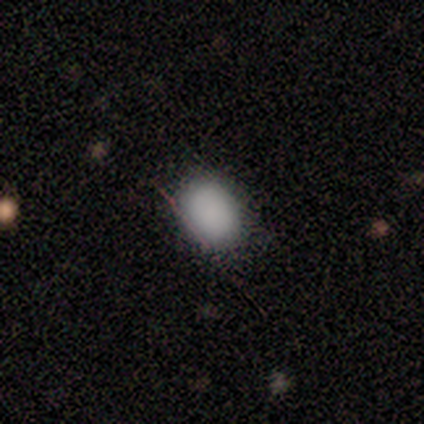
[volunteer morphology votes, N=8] smooth 62%, star or artifact 25%, featured or disk 12%. Down the decision tree: how rounded — in between (80%); merging — none (83%).